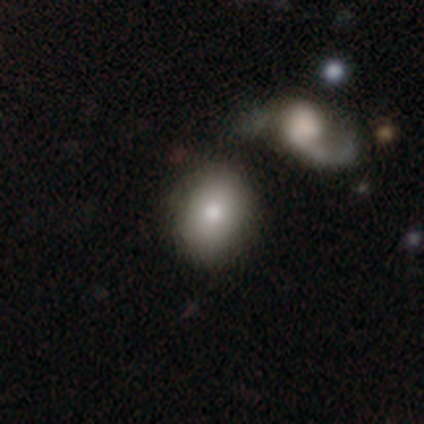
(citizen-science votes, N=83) This appears to be a smooth galaxy with no disk features (76%) that is in between round and cigar-shaped (52%). Merging: none (48%).